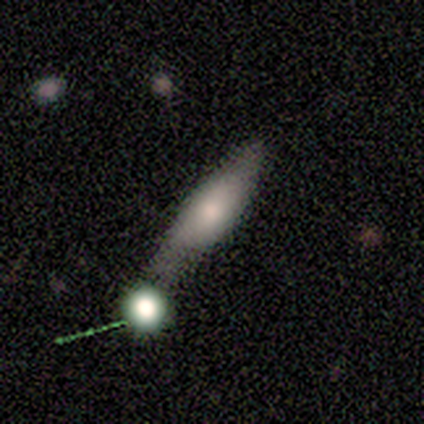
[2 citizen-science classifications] smooth 50% (tied), star or artifact 50% (tied), featured or disk 0%. Down the decision tree: how rounded — cigar-shaped (100%); merging — minor disturbance (100%).